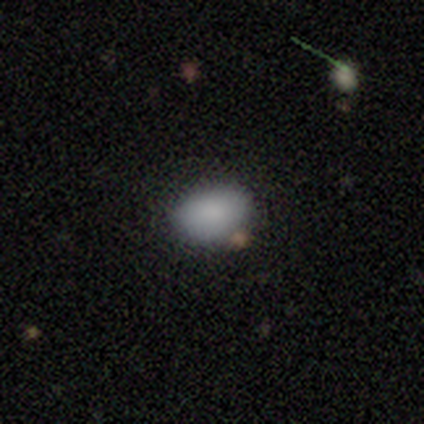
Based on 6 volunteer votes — Morphology: type=smooth (83%); roundness=in between (80%); merging=none (100%).